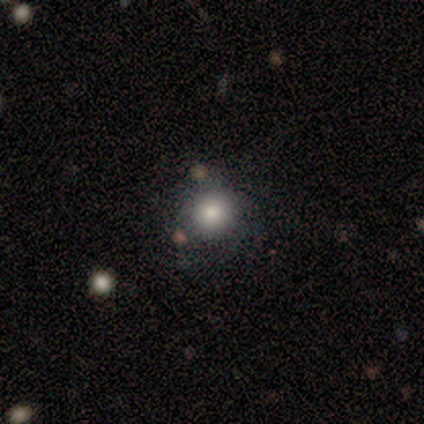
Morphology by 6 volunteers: A smooth galaxy with no disk features (83%) that is round (100%).

Vote fractions:
- Smooth or featured? smooth: 83% / featured or disk: 17% / star or artifact: 0%
- How rounded? round: 100% / in between: 0% / cigar-shaped: 0%
- Merging? none: 67% / minor disturbance: 33% / major disturbance: 0% / merger: 0%